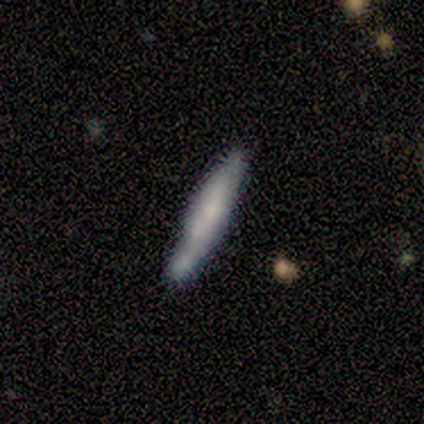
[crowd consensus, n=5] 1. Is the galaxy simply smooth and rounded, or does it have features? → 60% smooth, 20% featured or disk, 20% star or artifact.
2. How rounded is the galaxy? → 100% cigar-shaped, 0% round, 0% in between.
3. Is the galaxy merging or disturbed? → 75% none, 25% minor disturbance, 0% major disturbance, 0% merger.